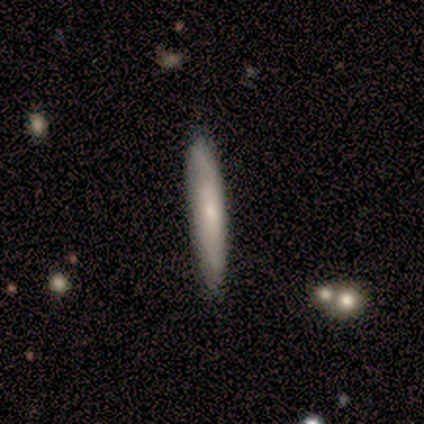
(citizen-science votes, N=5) This is clearly a smooth galaxy (80%). How rounded: likely cigar-shaped (75%). Merging: clearly none (100%).